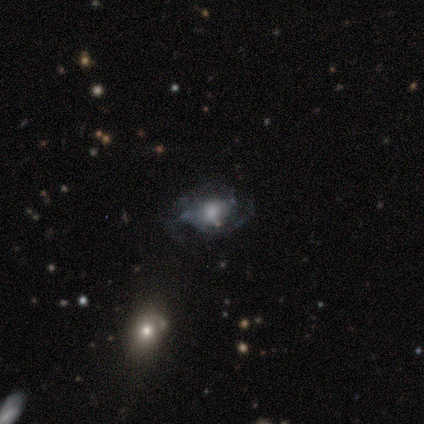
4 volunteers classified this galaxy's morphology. A featured or disk galaxy (75%) with no bar (67%), 3 (100%) tight (50%, tied with loose) spiral arms (67%) and a moderate central bulge (67%). Merging: major disturbance (50%).